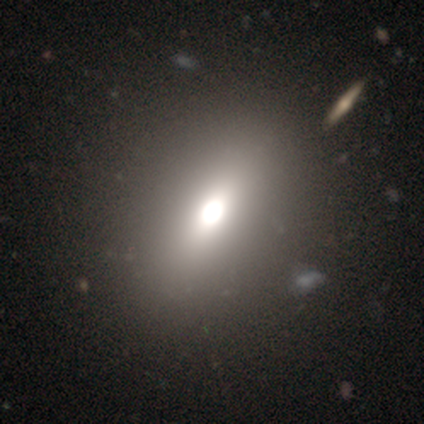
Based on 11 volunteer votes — smooth-or-featured: smooth: 64% | featured or disk: 27% | star or artifact: 9%
  how-rounded: in between: 71% | round: 14% | cigar-shaped: 14%
  merging: none: 90% | minor disturbance: 10% | major disturbance: 0% | merger: 0%